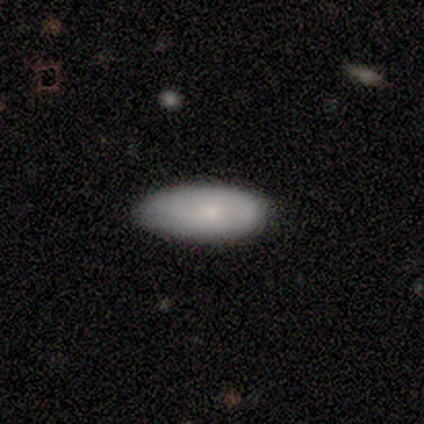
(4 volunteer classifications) Volunteers were most divided on "merging": none: 75%, minor disturbance: 25%, major disturbance: 0%, merger: 0%. More confident: smooth or featured — smooth (100%); how rounded — in between (100%).